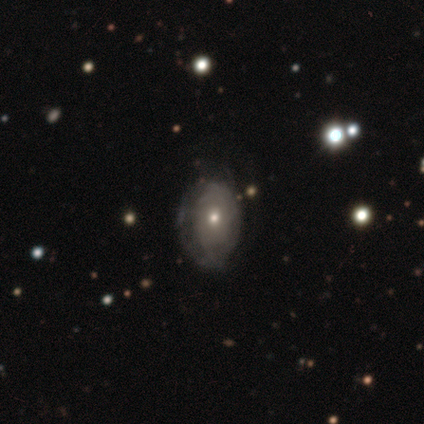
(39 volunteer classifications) A featured or disk galaxy (46%) with no bar (94%), no spiral arms (56%) and a moderate central bulge (50%, tied with small). Merging: none (53%).